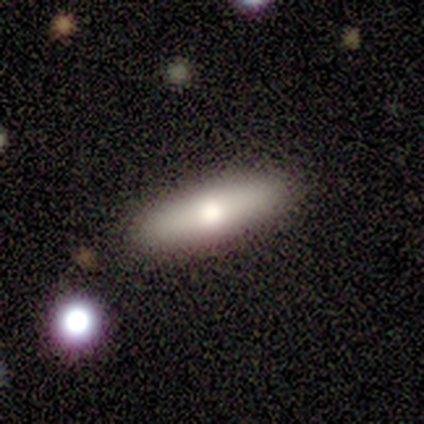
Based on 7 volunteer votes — A smooth galaxy with no disk features (86%) that is cigar-shaped (67%).

Vote fractions:
- Smooth or featured? smooth: 86% / featured or disk: 14% / star or artifact: 0%
- How rounded? cigar-shaped: 67% / in between: 33% / round: 0%
- Merging? none: 100% / minor disturbance: 0% / major disturbance: 0% / merger: 0%